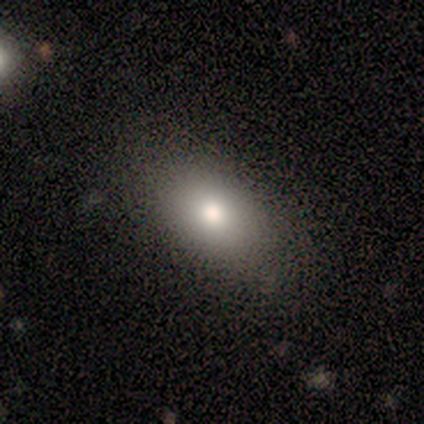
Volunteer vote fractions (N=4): Smooth or featured? 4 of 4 (100%) said smooth. How rounded? 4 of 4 (100%) said in between. Merging? 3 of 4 (75%) said none.